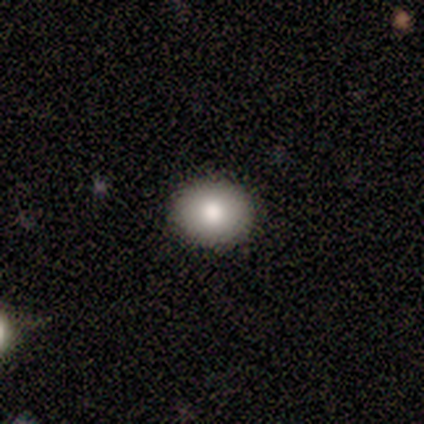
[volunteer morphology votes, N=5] Volunteers were most divided on "how rounded": round: 67%, in between: 33%, cigar-shaped: 0%. More confident: merging — none (100%); smooth or featured — smooth (60%).